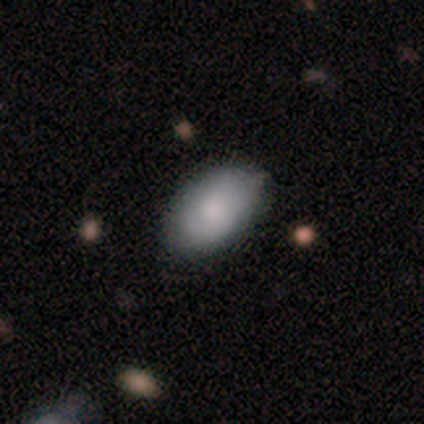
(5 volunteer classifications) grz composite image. It shows a smooth galaxy with no disk features (80%) that is in between round and cigar-shaped (100%). Merging: none (80%).